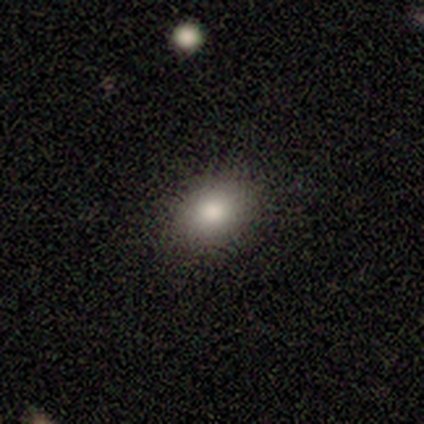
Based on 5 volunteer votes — A smooth galaxy with no disk features (100%) that is in between round and cigar-shaped (80%). Merging: none (60%).